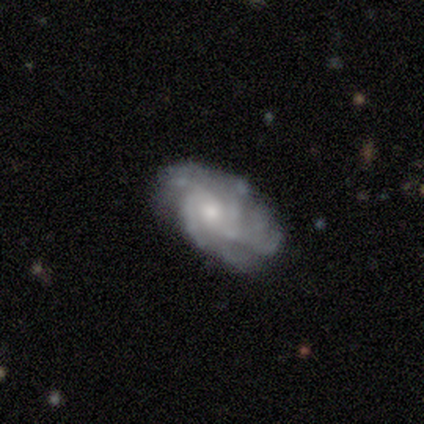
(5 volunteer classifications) This is clearly a featured or disk galaxy (100%). It is clearly not viewed edge-on (100%). Bar: clearly no (100%). Spiral arm pattern: clearly yes (100%). Spiral arm count: marginally more than 4 (40%). Spiral winding: likely medium (60%). Central bulge: likely moderate (60%). Merging: clearly none (80%).